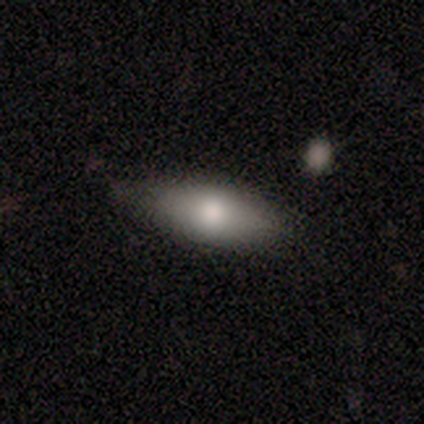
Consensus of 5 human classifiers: smooth 60%, featured or disk 40%, star or artifact 0%. Down the decision tree: how rounded — in between (67%); merging — minor disturbance (80%).